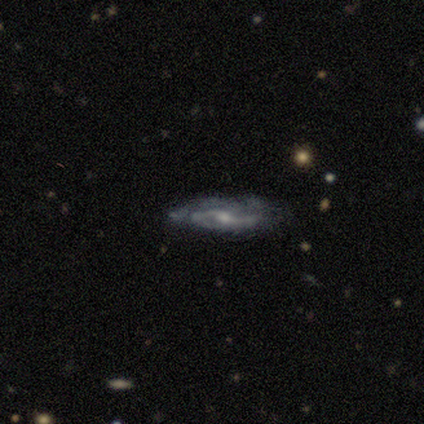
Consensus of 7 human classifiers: featured or disk 100%, smooth 0%, star or artifact 0%. Down the decision tree: edge-on disk — no (100%); bar — weak (71%); spiral arms — yes (86%); spiral arm count — 2 (50%); spiral winding — medium (67%); bulge size — small (57%); merging — none (86%).